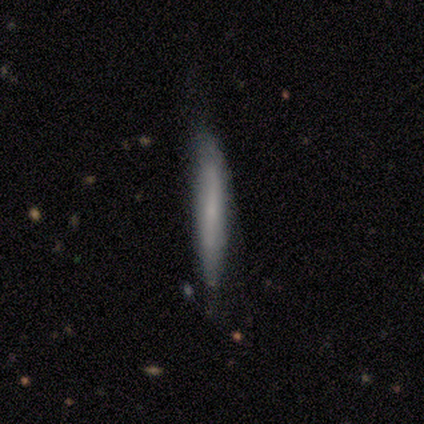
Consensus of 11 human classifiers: Smooth or featured? smooth (73%)
How rounded? cigar-shaped (100%)
Merging? none (64%)